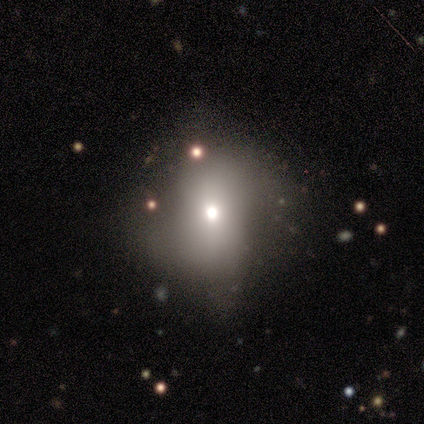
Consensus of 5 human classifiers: A featured or disk galaxy (60%) with no bar (100%), no spiral arms (67%) and a moderate central bulge (100%). Merging: none (67%).